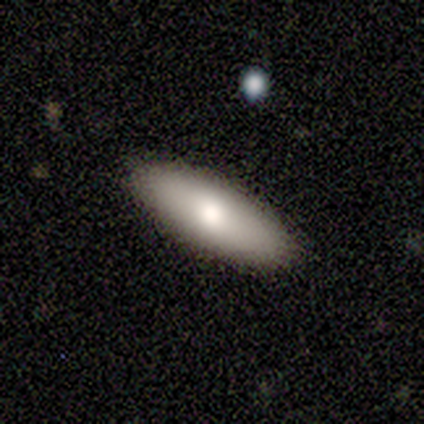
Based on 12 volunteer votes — This appears to be a smooth galaxy with no disk features (58%) that is cigar-shaped (71%). Merging: none (90%).